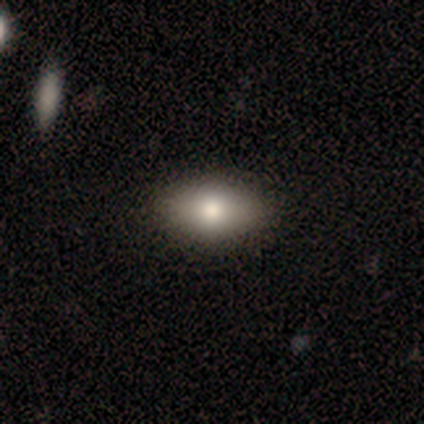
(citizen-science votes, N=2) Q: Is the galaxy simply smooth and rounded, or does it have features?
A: smooth — 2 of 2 (100%).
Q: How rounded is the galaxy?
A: in between — 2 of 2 (100%).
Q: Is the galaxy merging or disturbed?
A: none — 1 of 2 (50%, tied with minor disturbance).